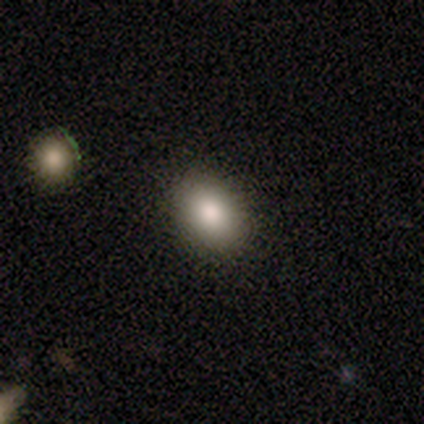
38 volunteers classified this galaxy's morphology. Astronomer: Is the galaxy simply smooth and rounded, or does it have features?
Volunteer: smooth — 92%.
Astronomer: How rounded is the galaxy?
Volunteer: in between — 74%.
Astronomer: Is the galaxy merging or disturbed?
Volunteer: none — 89%.